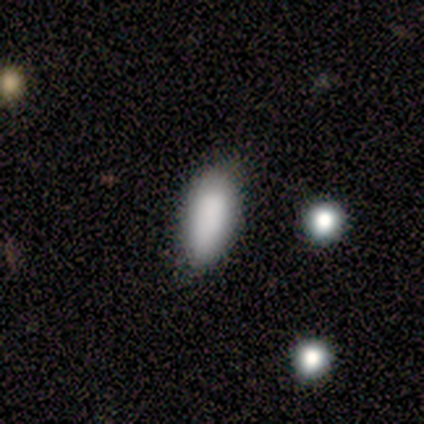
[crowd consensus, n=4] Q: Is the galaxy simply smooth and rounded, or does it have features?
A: smooth — 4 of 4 (100%).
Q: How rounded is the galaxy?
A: in between — 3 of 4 (75%).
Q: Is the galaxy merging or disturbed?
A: none — 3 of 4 (75%).